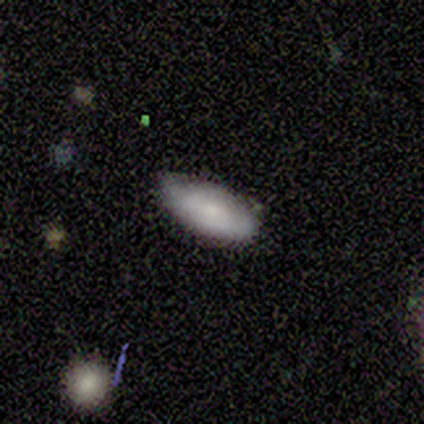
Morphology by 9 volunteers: type=smooth (89%); roundness=in between (100%); merging=none (75%).